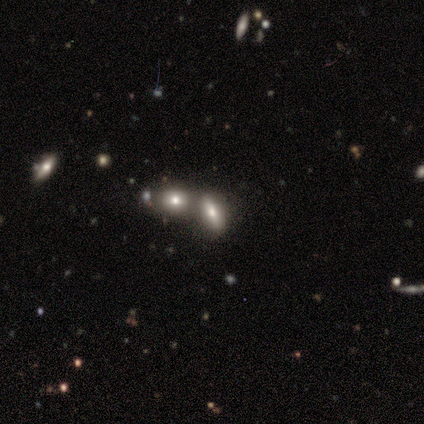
This is marginally a smooth galaxy (40%, tied with star or artifact). How rounded: clearly in between (100%). Merging: likely merger (67%).